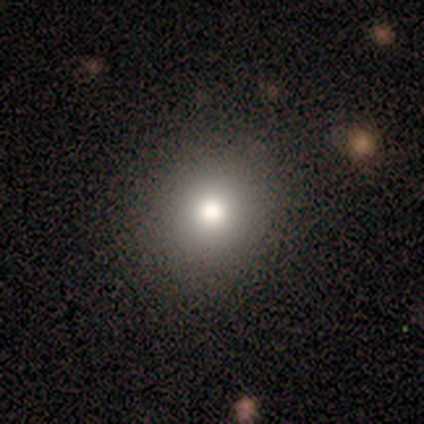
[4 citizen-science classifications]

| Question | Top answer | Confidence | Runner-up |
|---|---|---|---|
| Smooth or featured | smooth | 50% | tied: star or artifact (50%) |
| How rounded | round | 100% | — |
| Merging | none | 100% | — |